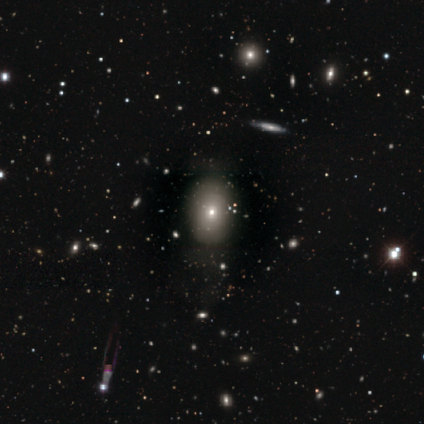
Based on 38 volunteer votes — smooth_or_featured: smooth (p=0.53) [alt: featured or disk p=0.32]
how_rounded: in between (p=0.75) [alt: round p=0.25]
merging: none (p=0.66) [alt: minor disturbance p=0.25]